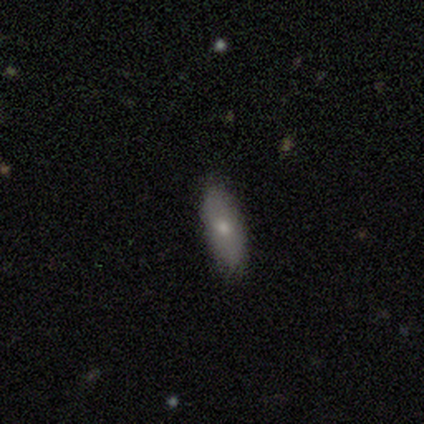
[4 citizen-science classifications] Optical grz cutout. It shows a smooth galaxy with no disk features (75%) that is in between round and cigar-shaped (100%). Merging: none (100%).